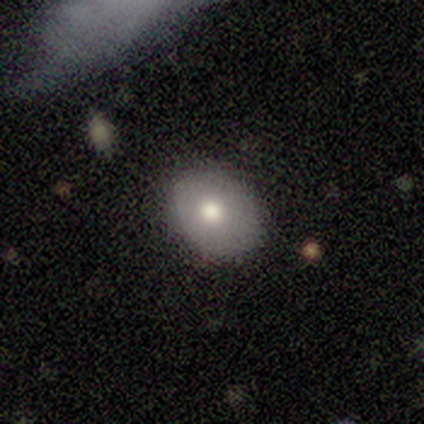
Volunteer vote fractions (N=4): This is possibly a smooth galaxy (50%, tied with featured or disk). How rounded: clearly in between (100%). Merging: likely none (75%).